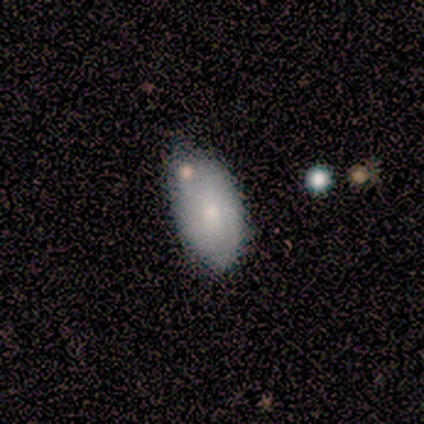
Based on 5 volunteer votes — A smooth galaxy with no disk features (60%) that is in between round and cigar-shaped (100%).

Vote fractions:
- Smooth or featured? smooth: 60% / featured or disk: 40% / star or artifact: 0%
- How rounded? in between: 100% / round: 0% / cigar-shaped: 0%
- Merging? none: 60% / minor disturbance: 20% / merger: 20% / major disturbance: 0%